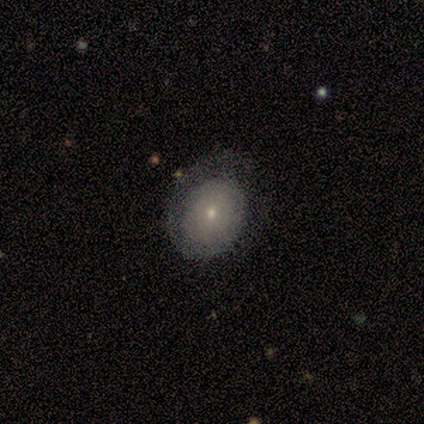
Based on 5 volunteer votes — This is likely a smooth galaxy (60%). How rounded: clearly in between (100%). Merging: likely none (60%).